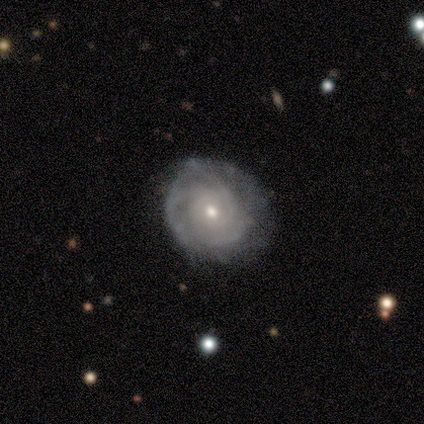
featured or disk 100%, smooth 0%, star or artifact 0%. Down the decision tree: edge-on disk — no (100%); bar — no (80%); spiral arms — yes (100%); spiral arm count — 3 (40%); spiral winding — tight (100%); bulge size — small (80%); merging — none (100%).